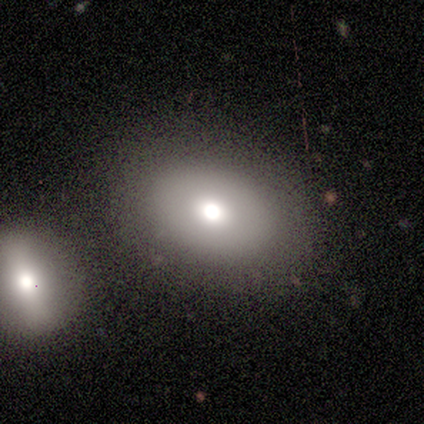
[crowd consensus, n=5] Smooth or featured: smooth — 60% (featured or disk — 40%)
How rounded: in between — 67% (round — 33%)
Merging: none — 80% (major disturbance — 20%)